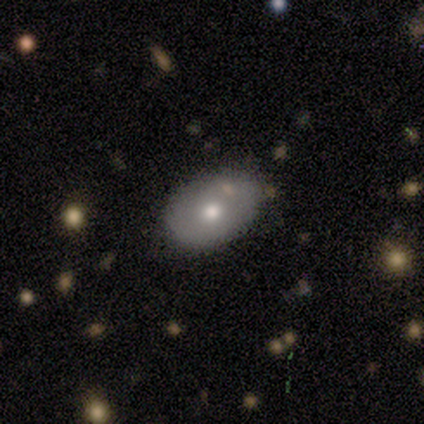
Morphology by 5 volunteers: smooth_or_featured: smooth (p=1.00)
how_rounded: in between (p=1.00)
merging: none (p=0.80) [alt: minor disturbance p=0.20]